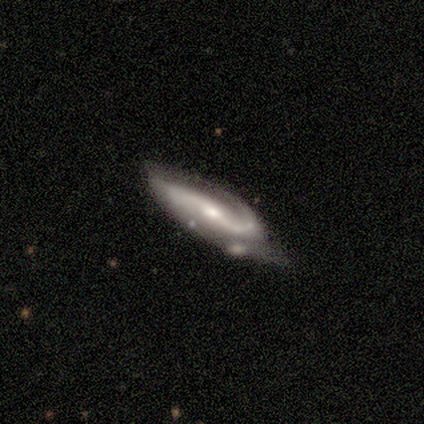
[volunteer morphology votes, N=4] Smooth or featured? featured or disk (100%)
Edge-on disk? no (100%)
Bar? no (75%)
Spiral arms? yes (100%)
Spiral winding? loose (75%)
Spiral arm count? 2 (75%)
Bulge size? moderate (50%, tied with small)
Merging? none (50%)